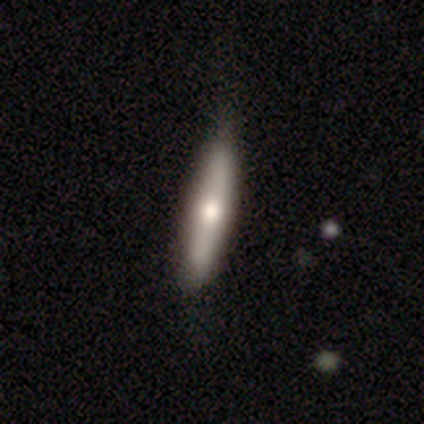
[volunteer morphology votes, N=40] Overall: smooth (55%; featured or disk 45%). How rounded: cigar-shaped (91%). Merging: none (48%; minor disturbance 15%).